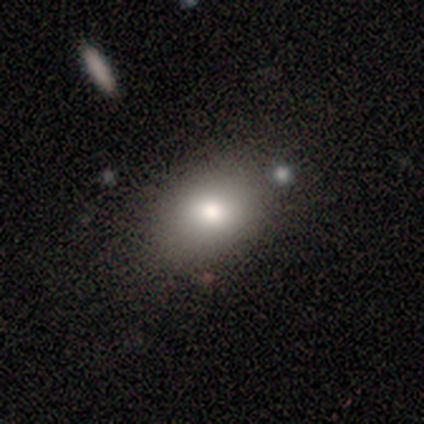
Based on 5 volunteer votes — A smooth galaxy with no disk features (100%) that is in between round and cigar-shaped (80%). Merging: minor disturbance (60%).